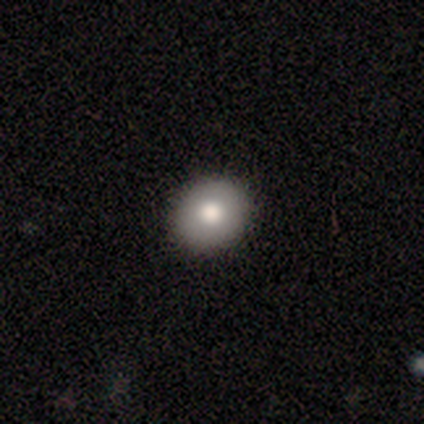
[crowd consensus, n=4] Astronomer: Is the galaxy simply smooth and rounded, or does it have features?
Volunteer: smooth — 100%.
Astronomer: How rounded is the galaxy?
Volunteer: round — 75%.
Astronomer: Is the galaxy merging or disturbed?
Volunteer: none — 75%.